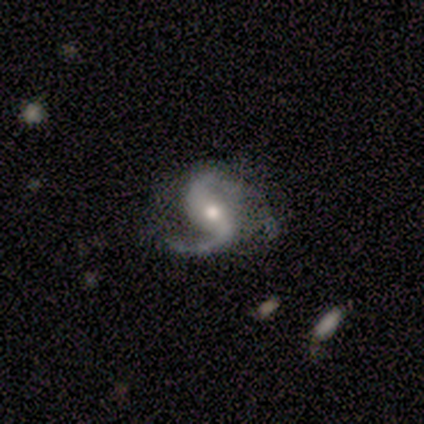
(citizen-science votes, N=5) Smooth or featured? 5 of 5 (100%) said featured or disk. Edge-on disk? 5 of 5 (100%) said no. Bar? 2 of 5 (40%, tied with weak) said strong. Spiral arms? 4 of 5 (80%) said yes. Spiral winding? 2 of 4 (50%) said medium. Spiral arm count? 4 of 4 (100%) said 2. Bulge size? 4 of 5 (80%) said moderate. Merging? 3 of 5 (60%) said none.